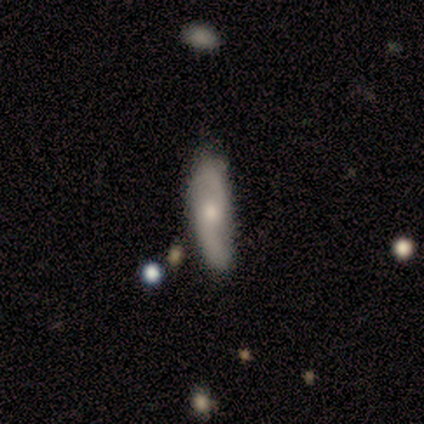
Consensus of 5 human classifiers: smooth-or-featured: featured or disk: 60% | smooth: 40% | star or artifact: 0%
  disk-edge-on: no: 67% | yes: 33%
    bar: no: 100% | strong: 0% | weak: 0%
    has-spiral-arms: yes: 50% (tied) | no: 50% (tied)
      spiral-winding: medium: 100% | tight: 0% | loose: 0%
      spiral-arm-count: 2: 100% | 1: 0% | 3: 0% | 4: 0% | more than 4: 0% | can't tell: 0%
    bulge-size: small: 100% | dominant: 0% | large: 0% | moderate: 0% | none: 0%
  merging: none: 80% | major disturbance: 20% | minor disturbance: 0% | merger: 0%